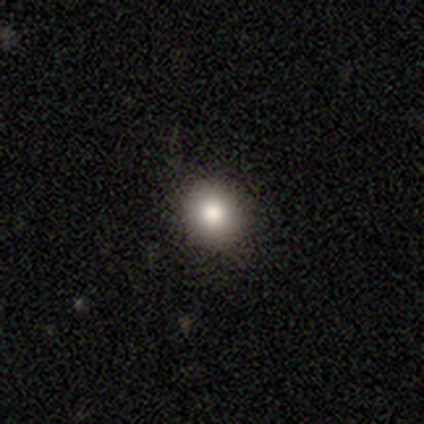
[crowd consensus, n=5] smooth-or-featured: smooth: 80% | featured or disk: 20% | star or artifact: 0%
  how-rounded: round: 100% | in between: 0% | cigar-shaped: 0%
  merging: none: 100% | minor disturbance: 0% | major disturbance: 0% | merger: 0%